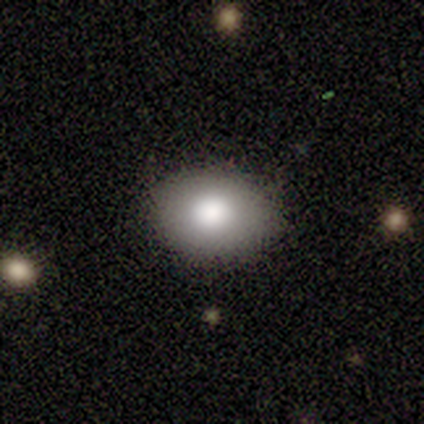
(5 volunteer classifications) This is marginally a smooth galaxy (40%, tied with featured or disk). How rounded: possibly round (50%, tied with in between). Merging: clearly none (100%).